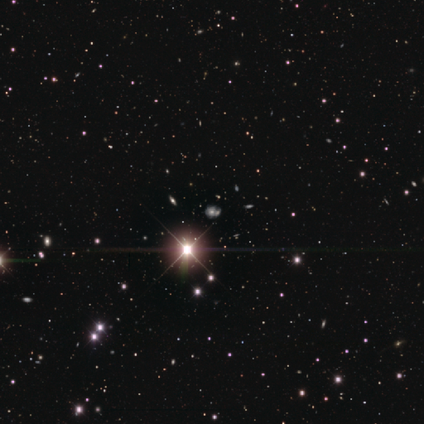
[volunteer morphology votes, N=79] Q: Smooth or featured?
A: star or artifact (85%); runner-up: featured or disk (11%)